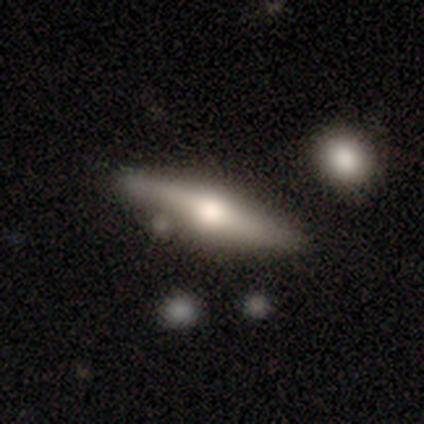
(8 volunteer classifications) Morphology: type=featured or disk (62%); edge-on=yes (100%); edge-on bulge=rounded (100%); merging=none (86%).